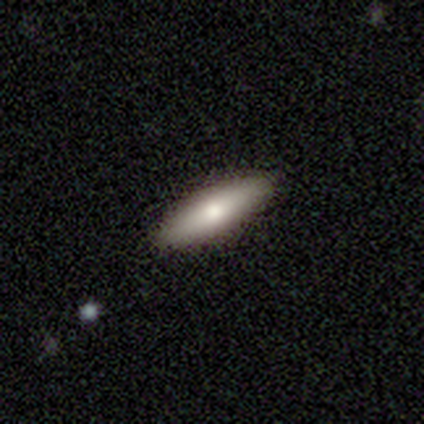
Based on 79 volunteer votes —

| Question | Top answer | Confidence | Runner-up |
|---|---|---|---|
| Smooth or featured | smooth | 71% | featured or disk (25%) |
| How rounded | in between | 52% | cigar-shaped (48%) |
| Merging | none | 46% | minor disturbance (5%) |